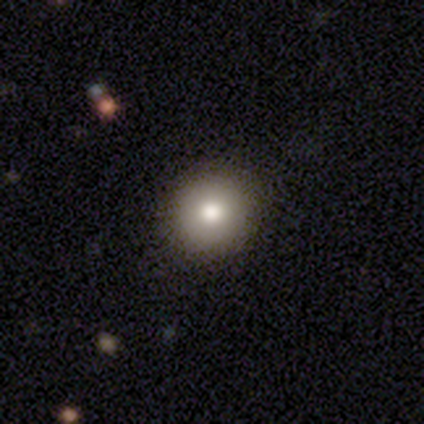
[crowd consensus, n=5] Overall: smooth (100%). How rounded: round (100%). Merging: none (80%).